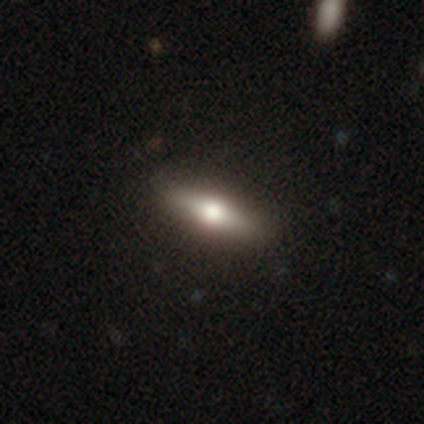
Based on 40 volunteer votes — Volunteers were most divided on "how rounded": cigar-shaped: 52%, in between: 48%, round: 0%. More confident: merging — none (79%); smooth or featured — smooth (52%).